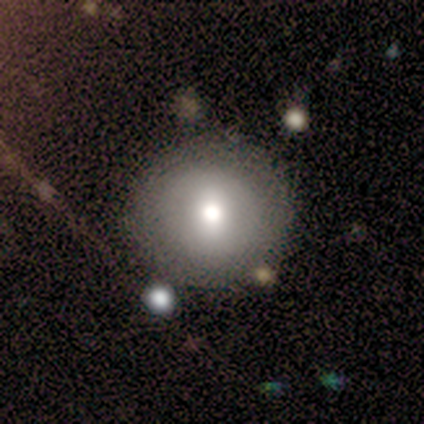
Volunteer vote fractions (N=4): smooth_or_featured: smooth (p=0.50) [alt: featured or disk p=0.25]
how_rounded: round (p=1.00)
merging: none (p=0.67) [alt: minor disturbance p=0.33]